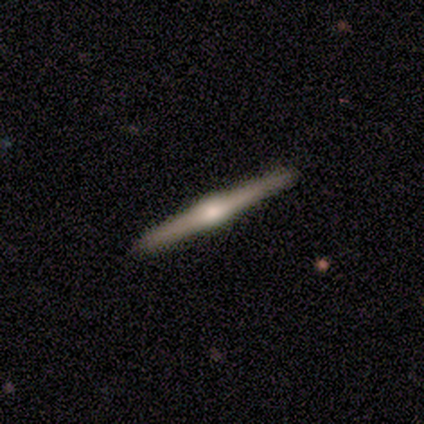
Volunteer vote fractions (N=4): A featured or disk galaxy (100%) viewed edge-on (100%) with a rounded central bulge (100%).

Vote fractions:
- Smooth or featured? featured or disk: 100% / smooth: 0% / star or artifact: 0%
- Edge-on disk? yes: 100% / no: 0%
- Edge-on bulge? rounded: 100% / boxy: 0% / none: 0%
- Merging? none: 50% (tied) / minor disturbance: 50% (tied) / major disturbance: 0% / merger: 0%